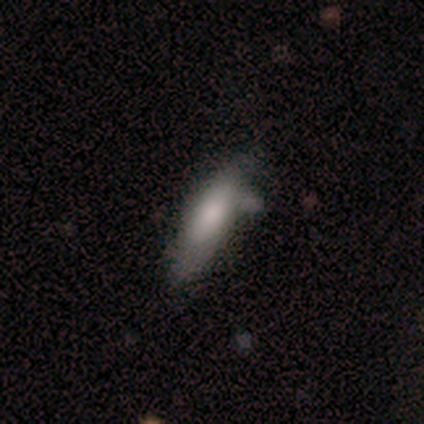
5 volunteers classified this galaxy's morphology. Overall: smooth (60%; featured or disk 20%). How rounded: in between (67%; cigar-shaped 33%). Merging: none (50%, tied with minor disturbance).